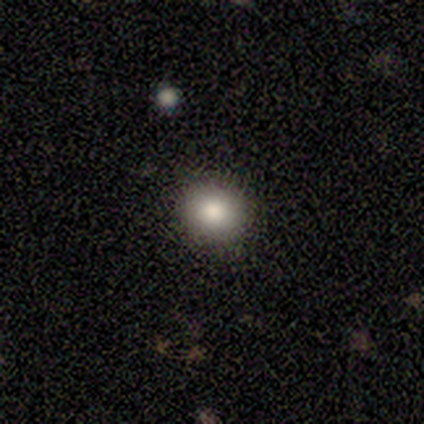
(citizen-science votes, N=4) Smooth or featured? 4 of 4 (100%) said smooth. How rounded? 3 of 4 (75%) said in between. Merging? 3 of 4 (75%) said none.